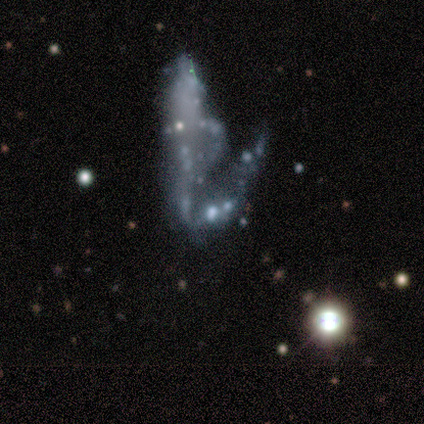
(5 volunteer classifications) Q: Smooth or featured?
A: featured or disk (80%); runner-up: star or artifact (20%)
Q: Edge-on disk?
A: no (100%)
Q: Bar?
A: no (100%)
Q: Spiral arms?
A: no (100%)
Q: Bulge size?
A: none (100%)
Q: Merging?
A: merger (50%); runner-up: none (25%)